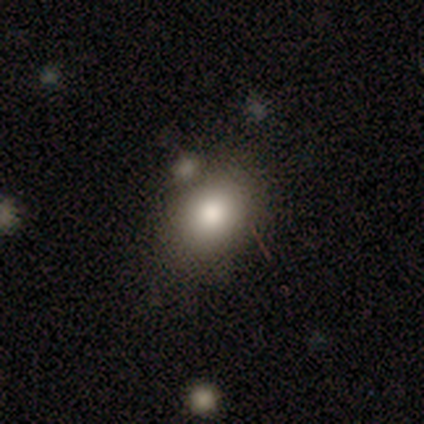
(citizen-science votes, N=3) Volunteers were most divided on "how rounded" (2-way tie): round: 50%, in between: 50%, cigar-shaped: 0%. More confident: smooth or featured — smooth (67%); merging — none (67%).